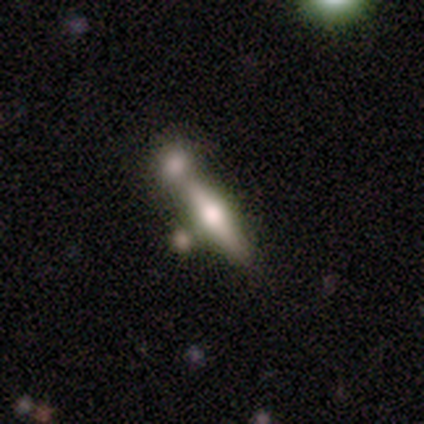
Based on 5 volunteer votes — Volunteers were most divided on "smooth or featured": featured or disk: 60%, smooth: 40%, star or artifact: 0%. More confident: edge-on disk — yes (100%); edge-on bulge — rounded (100%); merging — none (80%).